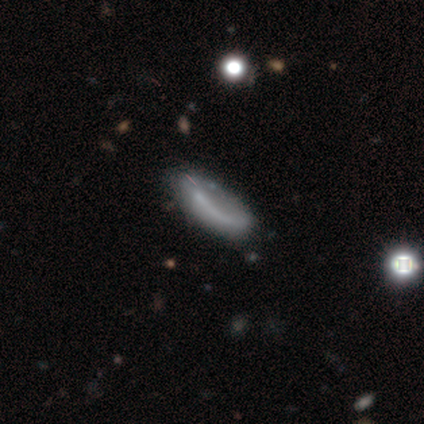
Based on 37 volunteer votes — smooth-or-featured: smooth: 49% | featured or disk: 41% | star or artifact: 11%
  how-rounded: in between: 78% | cigar-shaped: 22% | round: 0%
  merging: none: 45% | minor disturbance: 12% | major disturbance: 3% | merger: 0%